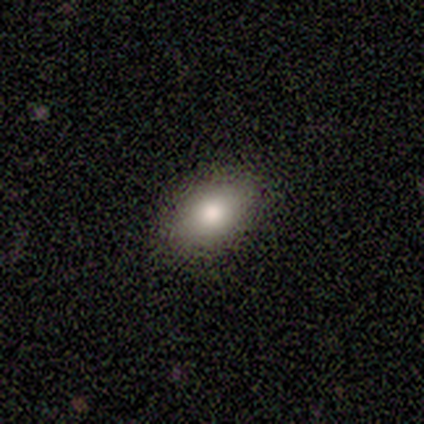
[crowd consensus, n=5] Q: Smooth or featured?
A: smooth (100%)
Q: How rounded?
A: in between (100%)
Q: Merging?
A: none (100%)